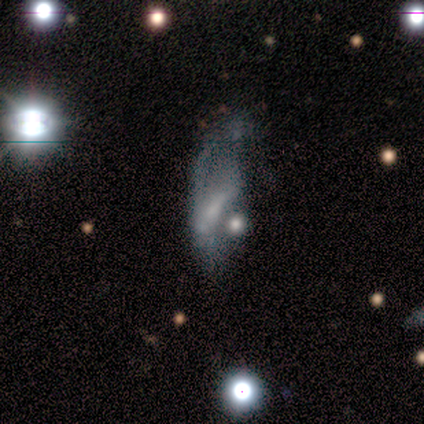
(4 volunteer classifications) A featured or disk galaxy (50%) with no bar (100%), no spiral arms (100%) and a moderate central bulge (50%, tied with small). Merging: major disturbance (67%).